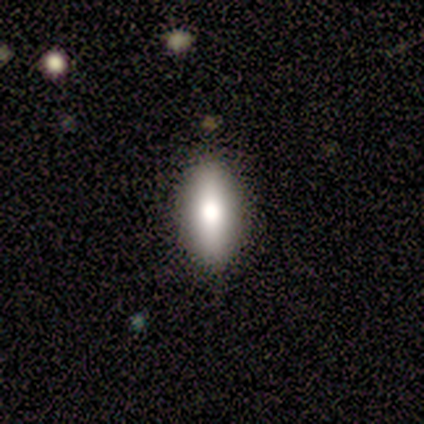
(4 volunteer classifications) A smooth galaxy with no disk features (100%) that is in between round and cigar-shaped (75%). Merging: none (100%).